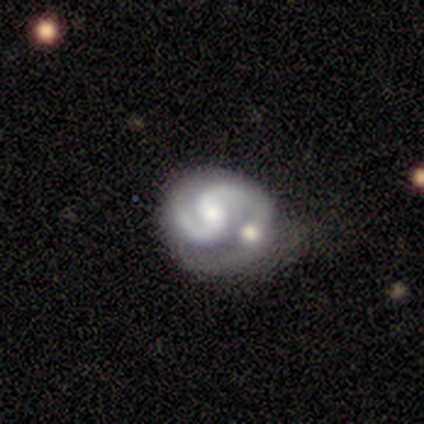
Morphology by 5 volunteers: Smooth or featured: featured or disk — 100%
Edge-on disk: no — 80% (yes — 20%)
Bar: no — 75% (strong — 25%)
Spiral arms: yes — 100%
Spiral winding: tight — 50% (tied with medium — 50%)
Spiral arm count: 2 — 100%
Bulge size: moderate — 100%
Merging: merger — 60% (minor disturbance — 20%)